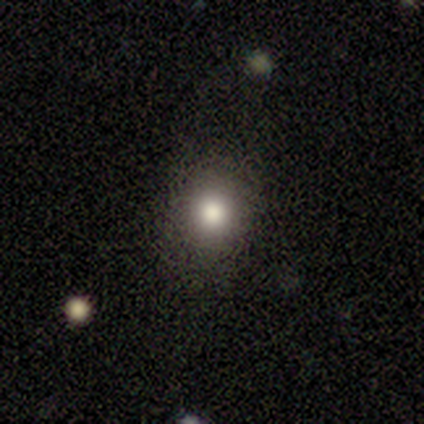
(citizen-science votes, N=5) This is clearly a smooth galaxy (80%). How rounded: clearly round (100%). Merging: likely none (75%).